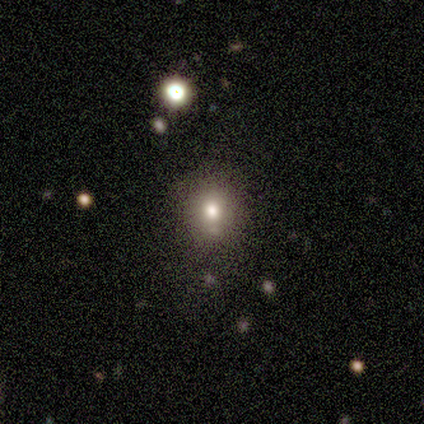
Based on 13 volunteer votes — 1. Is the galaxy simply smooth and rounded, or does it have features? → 85% smooth, 8% featured or disk, 8% star or artifact.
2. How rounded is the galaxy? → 55% in between, 45% round, 0% cigar-shaped.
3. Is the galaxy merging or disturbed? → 50% none, 42% minor disturbance, 8% major disturbance, 0% merger.